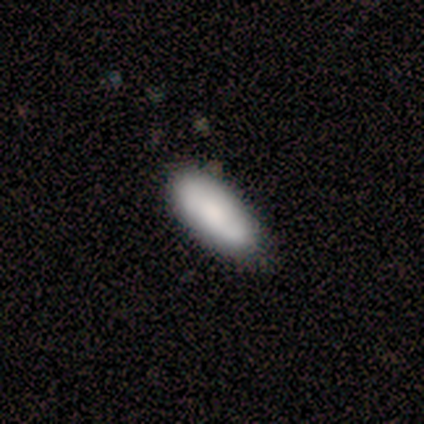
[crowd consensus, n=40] Morphology: type=smooth (78%); roundness=in between (87%); merging=none (72%).